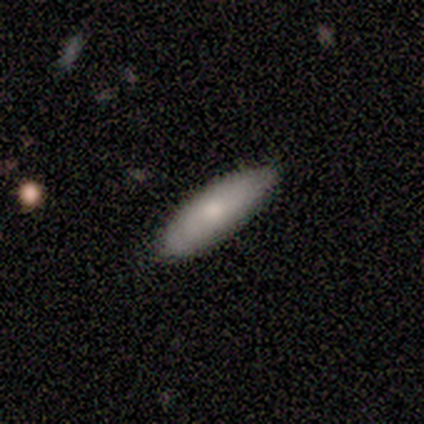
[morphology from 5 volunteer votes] type=featured or disk (60%); edge-on=no (67%); bar=no (100%); spiral arms=no (100%); bulge=large (100%); merging=none (80%).